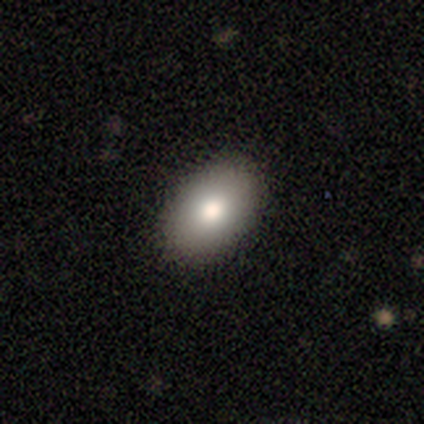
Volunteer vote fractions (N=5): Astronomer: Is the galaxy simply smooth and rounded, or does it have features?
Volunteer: smooth — 100%.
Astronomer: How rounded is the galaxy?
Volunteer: in between — 100%.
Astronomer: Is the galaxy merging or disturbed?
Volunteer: none — 100%.